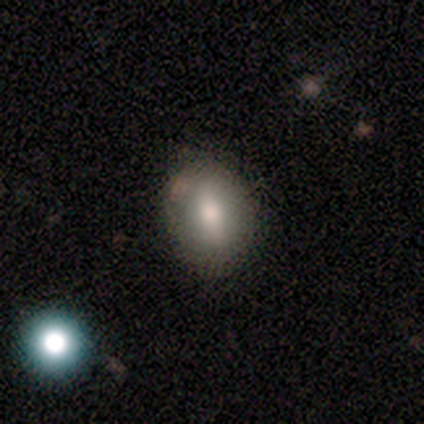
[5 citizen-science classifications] A smooth galaxy with no disk features (80%) that is in between round and cigar-shaped (75%).

Vote fractions:
- Smooth or featured? smooth: 80% / featured or disk: 20% / star or artifact: 0%
- How rounded? in between: 75% / round: 25% / cigar-shaped: 0%
- Merging? none: 100% / minor disturbance: 0% / major disturbance: 0% / merger: 0%